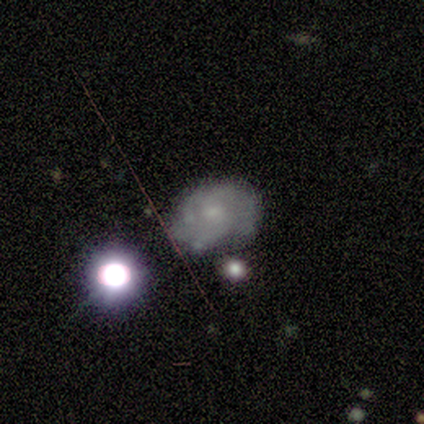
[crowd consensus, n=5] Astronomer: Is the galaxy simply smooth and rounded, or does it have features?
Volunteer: featured or disk — 100%.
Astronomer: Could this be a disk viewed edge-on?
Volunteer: no — 100%.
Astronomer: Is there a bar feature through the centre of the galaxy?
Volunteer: no — 80%.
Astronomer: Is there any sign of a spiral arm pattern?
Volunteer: yes — 80%.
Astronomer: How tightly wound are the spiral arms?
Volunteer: tight — 75%.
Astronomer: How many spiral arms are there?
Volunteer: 2 — 50%, tied with 3 at 50%.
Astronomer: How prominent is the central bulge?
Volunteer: small — 60%.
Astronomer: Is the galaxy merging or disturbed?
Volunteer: none — 40% (runner-up: minor disturbance, 20%).